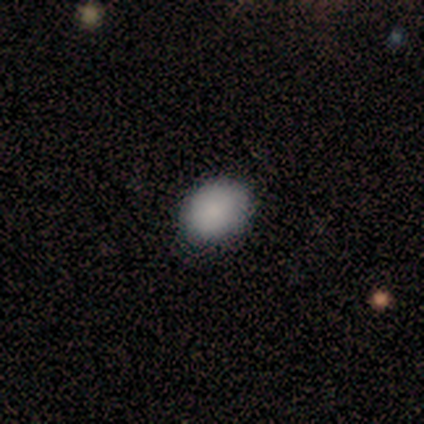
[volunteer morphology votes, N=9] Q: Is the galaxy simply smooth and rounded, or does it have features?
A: smooth — 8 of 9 (89%).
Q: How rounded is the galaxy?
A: in between — 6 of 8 (75%).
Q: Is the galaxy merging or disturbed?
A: none — 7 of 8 (88%).